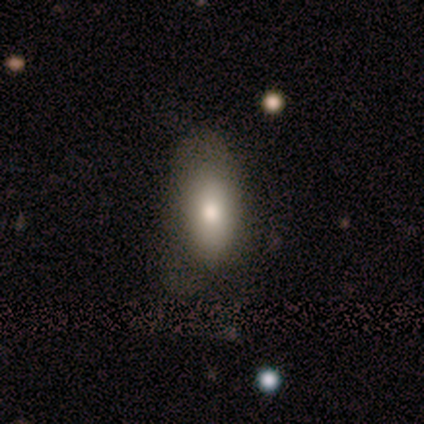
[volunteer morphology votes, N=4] Volunteers were most divided on "smooth or featured": smooth: 75%, featured or disk: 25%, star or artifact: 0%. More confident: how rounded — in between (100%); merging — none (100%).